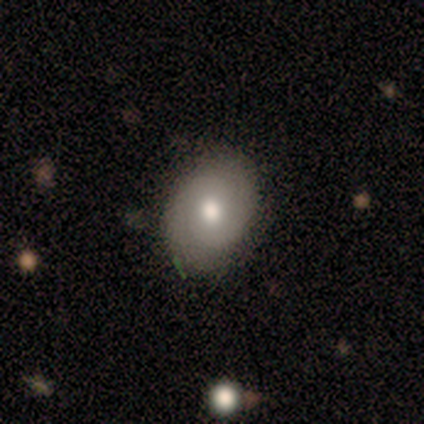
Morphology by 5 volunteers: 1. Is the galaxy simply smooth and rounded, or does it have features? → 60% smooth, 40% featured or disk, 0% star or artifact.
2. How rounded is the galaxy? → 67% in between, 33% round, 0% cigar-shaped.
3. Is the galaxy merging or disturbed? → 80% none, 20% minor disturbance, 0% major disturbance, 0% merger.